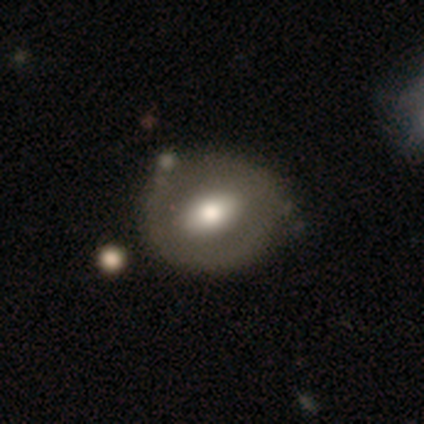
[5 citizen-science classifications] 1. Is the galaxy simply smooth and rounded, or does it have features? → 100% smooth, 0% featured or disk, 0% star or artifact.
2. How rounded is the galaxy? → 80% in between, 20% round, 0% cigar-shaped.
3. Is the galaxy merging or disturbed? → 80% none, 20% minor disturbance, 0% major disturbance, 0% merger.